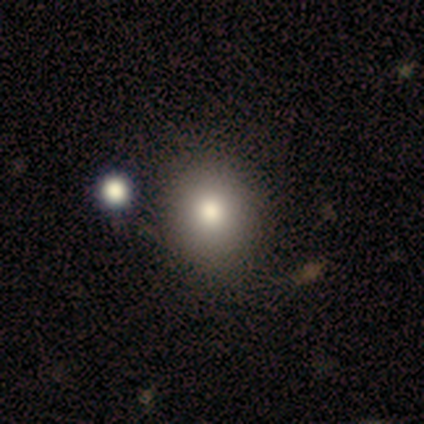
A smooth galaxy with no disk features (80%) that is round (100%). Merging: none (80%).